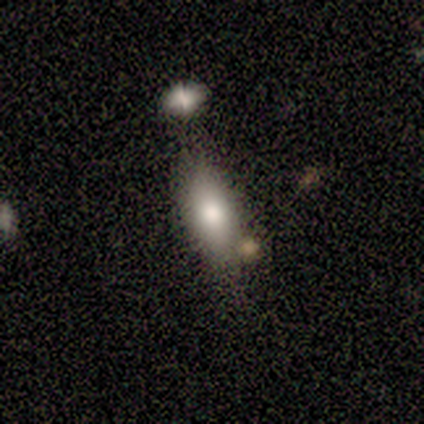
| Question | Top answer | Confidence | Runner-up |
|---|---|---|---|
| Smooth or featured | smooth | 100% | — |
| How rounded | in between | 100% | — |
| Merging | minor disturbance | 60% | none (20%) |